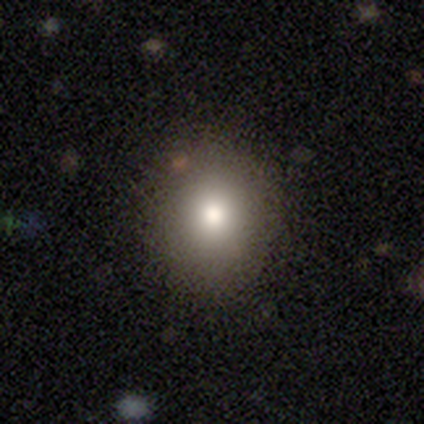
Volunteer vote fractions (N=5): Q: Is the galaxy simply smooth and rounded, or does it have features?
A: smooth — 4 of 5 (80%).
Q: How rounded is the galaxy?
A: round — 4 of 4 (100%).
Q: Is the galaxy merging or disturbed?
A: none — 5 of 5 (100%).